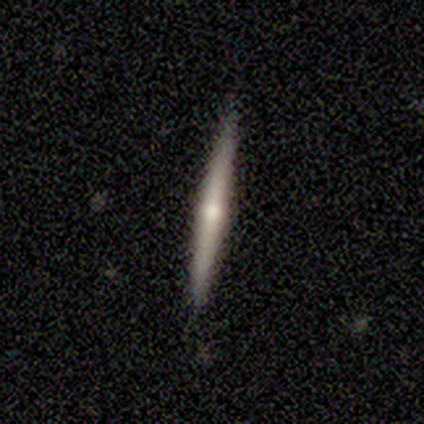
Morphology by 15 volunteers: smooth_or_featured: featured or disk (p=0.60) [alt: smooth p=0.27]
disk_edge_on: yes (p=1.00)
edge_on_bulge: rounded (p=0.78) [alt: none p=0.22]
merging: none (p=0.92) [alt: minor disturbance p=0.08]